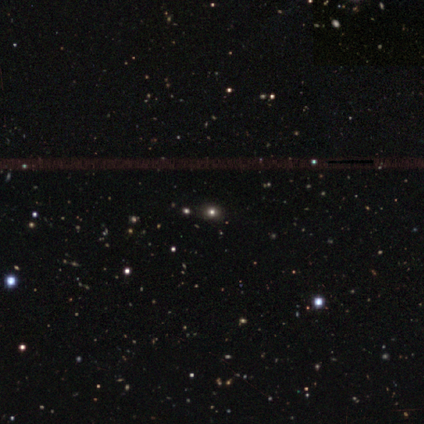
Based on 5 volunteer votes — Smooth or featured? 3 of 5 (60%) said star or artifact.